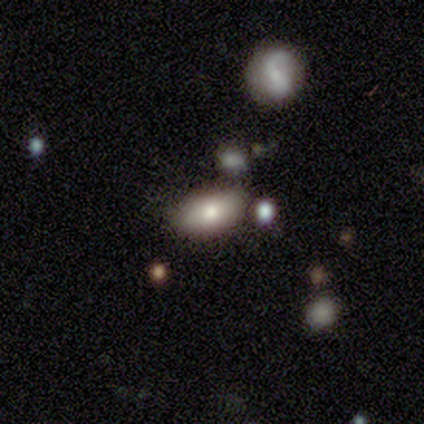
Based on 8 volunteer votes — Overall: smooth (50%; featured or disk 25%). How rounded: in between (100%). Merging: none (67%; minor disturbance 33%).